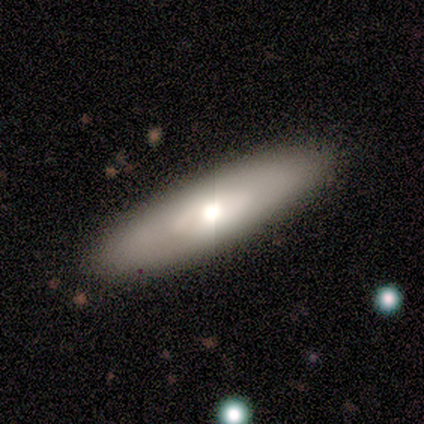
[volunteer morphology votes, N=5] This appears to be a smooth galaxy with no disk features (80%) that is in between round and cigar-shaped (50%, tied with cigar-shaped). Merging: none (100%).